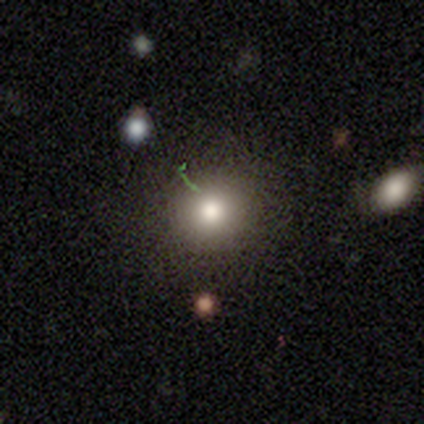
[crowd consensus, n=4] Smooth or featured?
  - smooth: 75% *
  - featured or disk: 25%
  - star or artifact: 0%
How rounded?
  - round: 100% *
  - in between: 0%
  - cigar-shaped: 0%
Merging?
  - none: 100% *
  - minor disturbance: 0%
  - major disturbance: 0%
  - merger: 0%